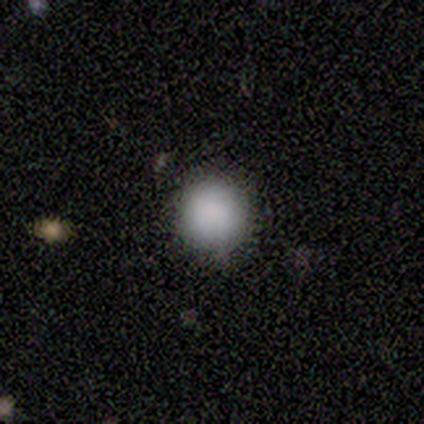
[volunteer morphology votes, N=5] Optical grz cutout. It shows a smooth galaxy with no disk features (100%) that is round (100%). Merging: none (80%).